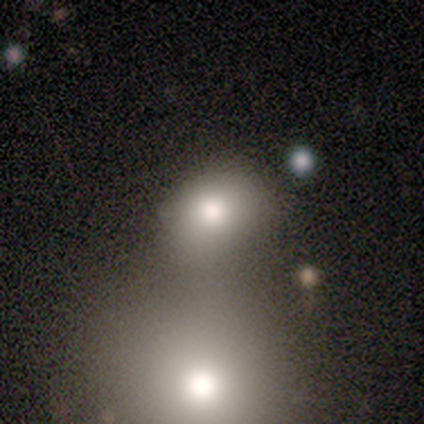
Smooth or featured? smooth (89%)
How rounded? round (75%)
Merging? none (44%)